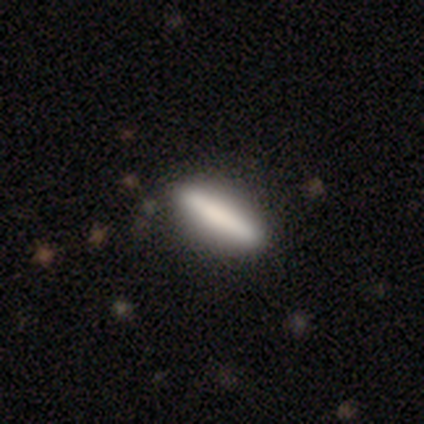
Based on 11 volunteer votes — Volunteers were most divided on "how rounded": cigar-shaped: 75%, in between: 25%, round: 0%. More confident: merging — none (100%); smooth or featured — smooth (73%).